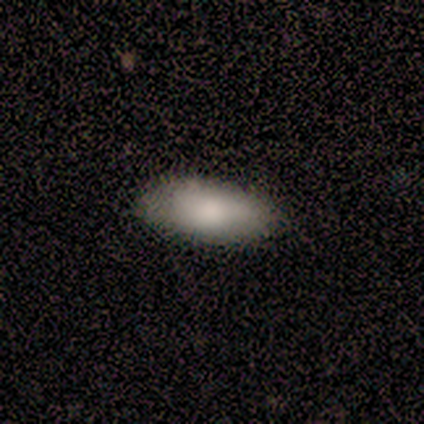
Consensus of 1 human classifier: This appears to be a smooth galaxy with no disk features (100%) that is in between round and cigar-shaped (100%). Merging: none (100%).